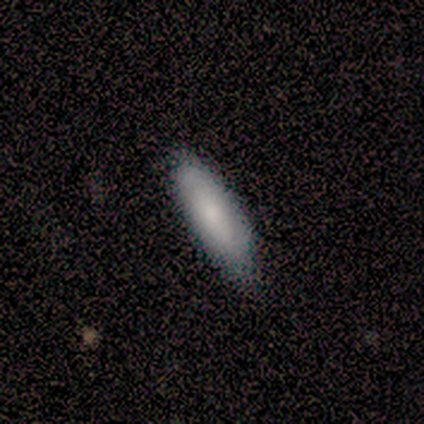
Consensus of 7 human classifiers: This appears to be a smooth galaxy with no disk features (100%) that is cigar-shaped (86%). Merging: none (100%).